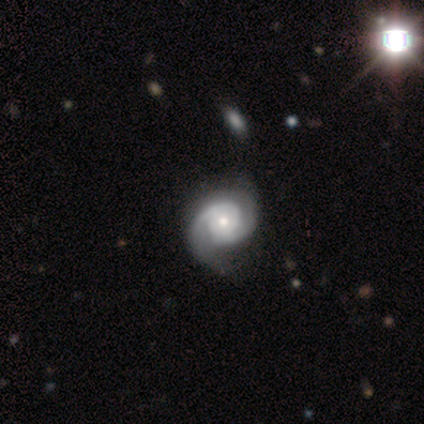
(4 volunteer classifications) A featured or disk galaxy (100%) with no bar (75%), 2 (100%) tight (75%) spiral arms (100%) and a moderate central bulge (50%, tied with small).

Vote fractions:
- Smooth or featured? featured or disk: 100% / smooth: 0% / star or artifact: 0%
- Edge-on disk? no: 100% / yes: 0%
- Bar? no: 75% / strong: 25% / weak: 0%
- Spiral arms? yes: 100% / no: 0%
- Spiral winding? tight: 75% / loose: 25% / medium: 0%
- Spiral arm count? 2: 100% / 1: 0% / 3: 0% / 4: 0% / more than 4: 0% / can't tell: 0%
- Bulge size? moderate: 50% (tied) / small: 50% (tied) / dominant: 0% / large: 0% / none: 0%
- Merging? none: 75% / minor disturbance: 25% / major disturbance: 0% / merger: 0%